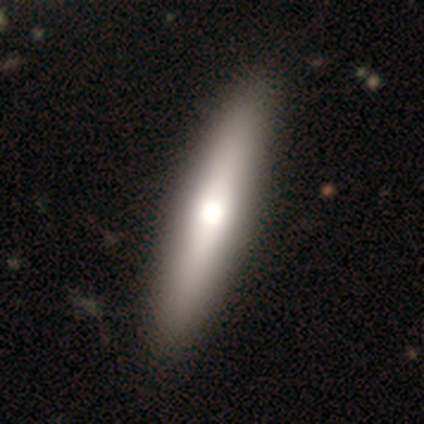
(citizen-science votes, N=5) A smooth galaxy with no disk features (60%) that is cigar-shaped (67%).

Vote fractions:
- Smooth or featured? smooth: 60% / featured or disk: 20% / star or artifact: 20%
- How rounded? cigar-shaped: 67% / in between: 33% / round: 0%
- Merging? none: 100% / minor disturbance: 0% / major disturbance: 0% / merger: 0%